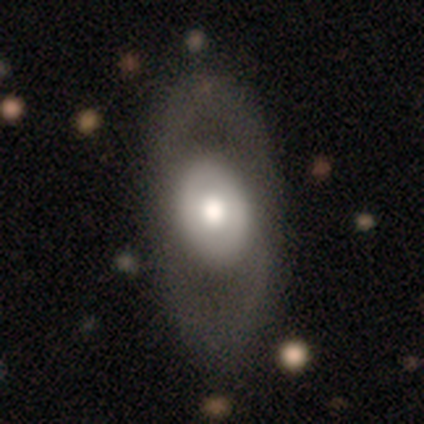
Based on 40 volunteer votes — A featured or disk galaxy (55%) with no bar (91%), no spiral arms (73%) and a large central bulge (55%). Merging: none (57%).